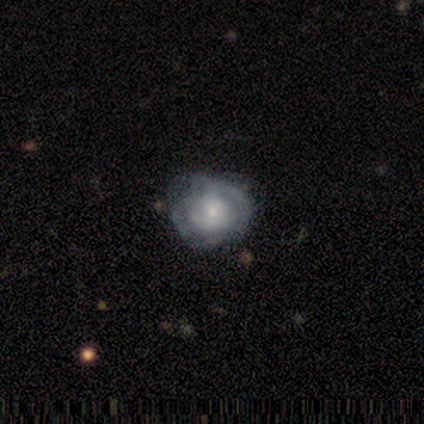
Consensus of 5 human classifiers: This is likely a featured or disk galaxy (60%). It is clearly not viewed edge-on (100%). Bar: clearly no (100%). Spiral arm pattern: likely yes (67%). Spiral arm count: clearly can't tell (100%). Spiral winding: clearly tight (100%). Central bulge: clearly small (100%). Merging: marginally none (40%, tied with minor disturbance).